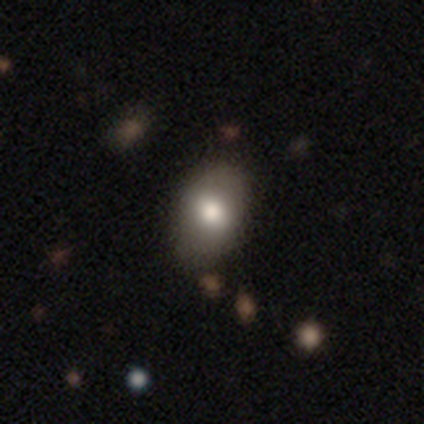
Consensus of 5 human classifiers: This is clearly a smooth galaxy (80%). How rounded: likely in between (75%). Merging: clearly none (100%).